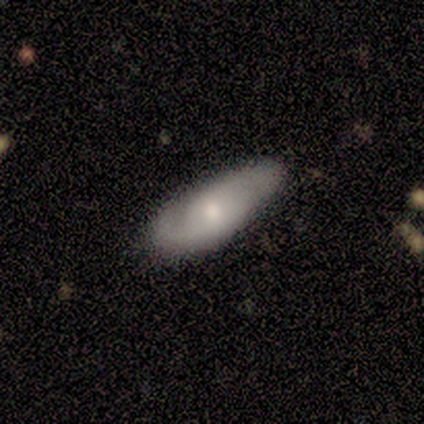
Q: Smooth or featured?
A: featured or disk (60%); runner-up: smooth (20%)
Q: Edge-on disk?
A: no (100%)
Q: Bar?
A: no (67%); runner-up: weak (33%)
Q: Spiral arms?
A: yes (67%); runner-up: no (33%)
Q: Spiral winding?
A: tight (50%); tied with: loose (50%)
Q: Spiral arm count?
A: 2 (50%); tied with: can't tell (50%)
Q: Bulge size?
A: moderate (67%); runner-up: small (33%)
Q: Merging?
A: minor disturbance (75%); runner-up: none (25%)